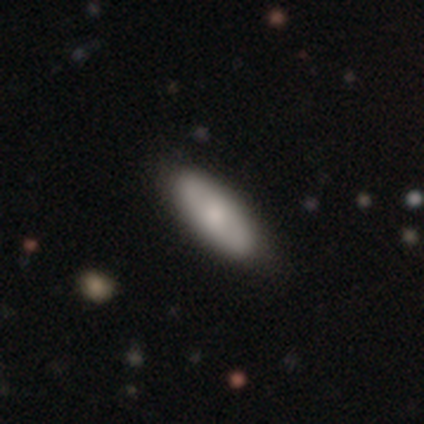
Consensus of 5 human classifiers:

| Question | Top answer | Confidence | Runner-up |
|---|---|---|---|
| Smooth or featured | smooth | 60% | featured or disk (40%) |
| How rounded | in between | 67% | cigar-shaped (33%) |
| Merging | none | 60% | minor disturbance (40%) |